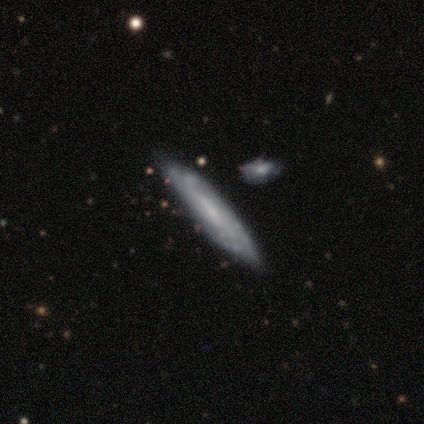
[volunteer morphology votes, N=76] smooth-or-featured: featured or disk: 70% | smooth: 29% | star or artifact: 1%
  disk-edge-on: no: 55% | yes: 45%
    bar: weak: 52% | no: 38% | strong: 10%
    has-spiral-arms: yes: 76% | no: 24%
      spiral-winding: tight: 50% | medium: 32% | loose: 18%
      spiral-arm-count: can't tell: 73% | 2: 9% | 3: 9% | 4: 9% | 1: 0% | more than 4: 0%
    bulge-size: small: 62% | none: 31% | large: 3% | moderate: 3% | dominant: 0%
  merging: none: 41% | merger: 15% | minor disturbance: 12% | major disturbance: 0%